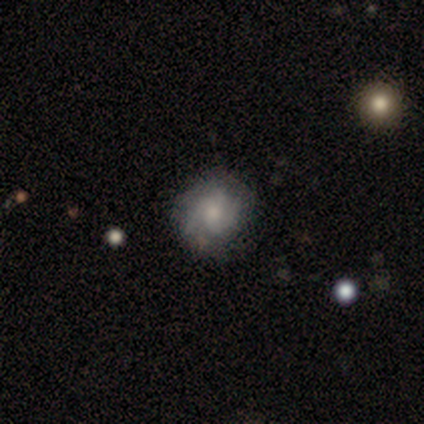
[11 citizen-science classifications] This appears to be a smooth galaxy with no disk features (45%) that is round (100%). Merging: none (88%).